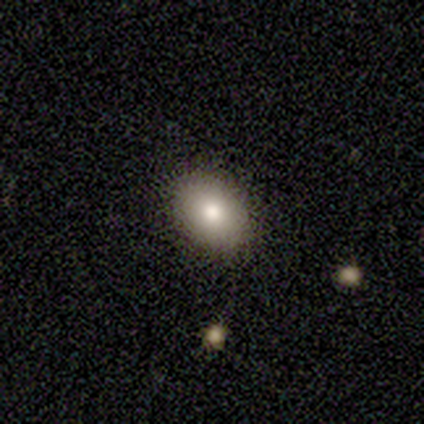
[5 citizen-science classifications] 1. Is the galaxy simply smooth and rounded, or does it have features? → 80% smooth, 20% featured or disk, 0% star or artifact.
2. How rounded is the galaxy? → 75% in between, 25% round, 0% cigar-shaped.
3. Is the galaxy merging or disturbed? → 100% none, 0% minor disturbance, 0% major disturbance, 0% merger.